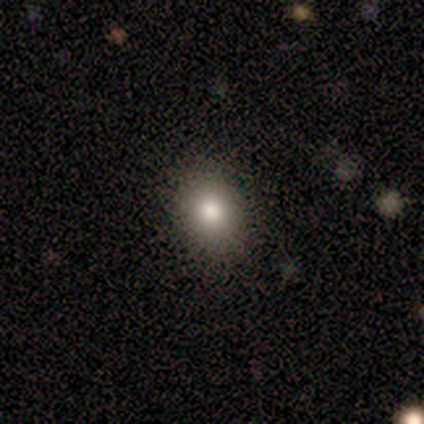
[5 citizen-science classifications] Smooth or featured? smooth (80%)
How rounded? in between (75%)
Merging? none (80%)